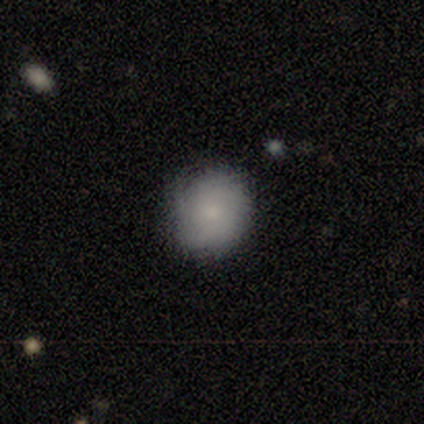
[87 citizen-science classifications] Overall: smooth (69%). How rounded: round (90%). Merging: none (77%).